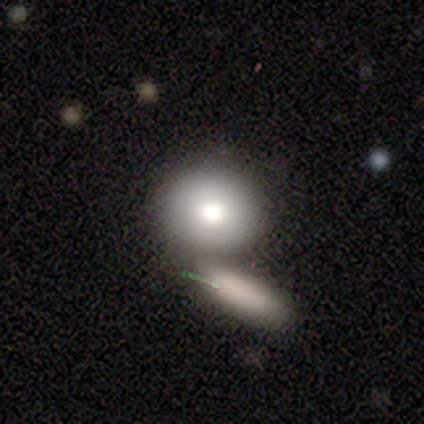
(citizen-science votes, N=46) Smooth or featured? smooth (83%)
How rounded? round (61%)
Merging? merger (58%)